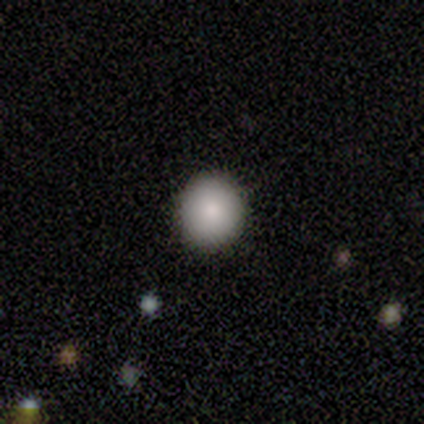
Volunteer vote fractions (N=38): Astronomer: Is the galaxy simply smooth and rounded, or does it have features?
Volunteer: smooth — 89%.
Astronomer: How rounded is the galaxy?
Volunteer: round — 91%.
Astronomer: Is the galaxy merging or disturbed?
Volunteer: none — 92%.